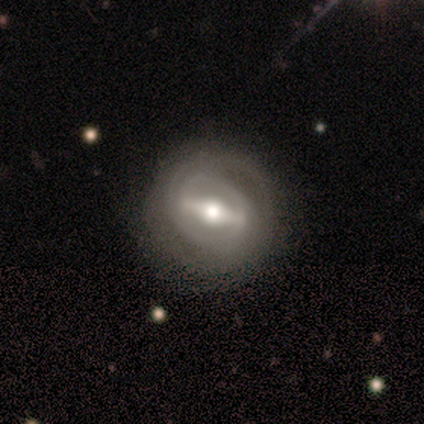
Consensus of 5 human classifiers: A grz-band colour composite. It shows a featured or disk galaxy (100%) with a strong bar (100%), 2 (75%) tight (50%) spiral arms (100%) and a moderate central bulge (75%). Merging: none (100%).